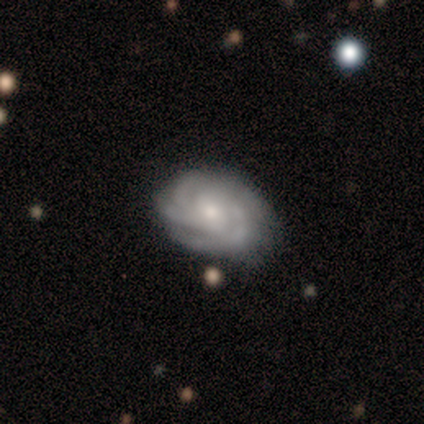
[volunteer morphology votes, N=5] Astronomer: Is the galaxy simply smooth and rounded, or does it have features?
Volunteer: featured or disk — 80%.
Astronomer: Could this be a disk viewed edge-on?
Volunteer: no — 100%.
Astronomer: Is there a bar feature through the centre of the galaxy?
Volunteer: weak — 50%, tied with no at 50%.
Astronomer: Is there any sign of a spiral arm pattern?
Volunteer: yes — 100%.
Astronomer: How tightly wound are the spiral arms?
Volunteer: tight — 100%.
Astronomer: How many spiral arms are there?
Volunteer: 4 — 50%.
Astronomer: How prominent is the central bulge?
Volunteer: moderate — 75%.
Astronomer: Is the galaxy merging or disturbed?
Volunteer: none — 80%.